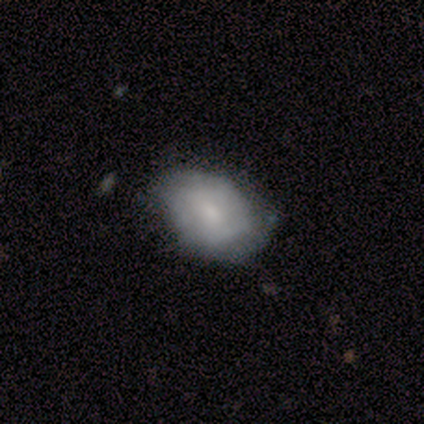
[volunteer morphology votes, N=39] smooth 51%, featured or disk 49%, star or artifact 0%. Down the decision tree: how rounded — in between (85%); merging — none (59%).